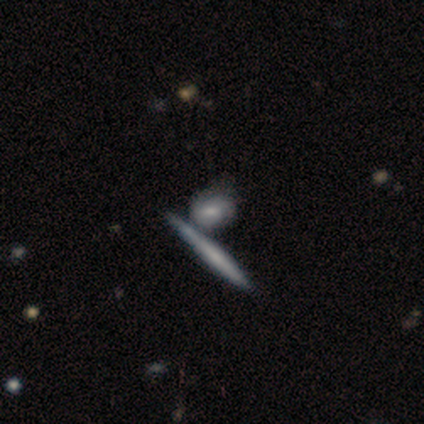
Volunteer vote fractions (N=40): This appears to be a featured or disk galaxy (48%) with no bar (50%), tight (50%) spiral arms (80%) and a moderate central bulge (40%). Merging: merger (46%).